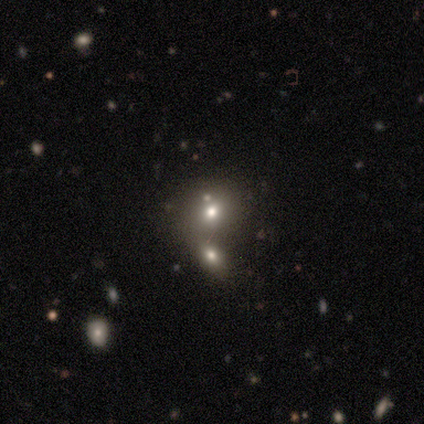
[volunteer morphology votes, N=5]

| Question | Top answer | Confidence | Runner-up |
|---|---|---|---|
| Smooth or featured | star or artifact | 60% | smooth (20%) |